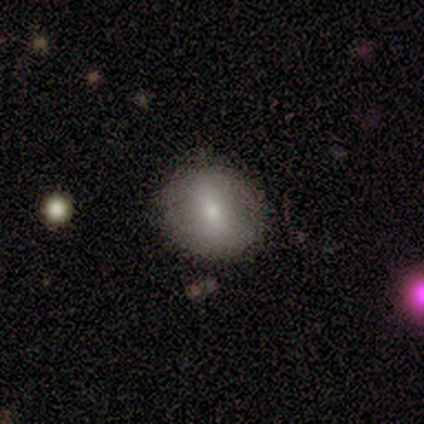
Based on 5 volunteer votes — smooth 60%, featured or disk 20%, star or artifact 20%. Down the decision tree: how rounded — round (100%); merging — none (75%).